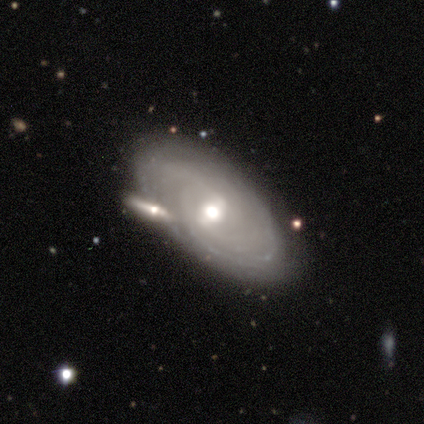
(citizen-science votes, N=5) A featured or disk galaxy (80%) with a weak bar (75%), more than 4 (50%, tied with can't tell) tight (100%) spiral arms (100%) and a moderate central bulge (50%).

Vote fractions:
- Smooth or featured? featured or disk: 80% / smooth: 20% / star or artifact: 0%
- Edge-on disk? no: 100% / yes: 0%
- Bar? weak: 75% / no: 25% / strong: 0%
- Spiral arms? yes: 100% / no: 0%
- Spiral winding? tight: 100% / medium: 0% / loose: 0%
- Spiral arm count? more than 4: 50% (tied) / can't tell: 50% (tied) / 1: 0% / 2: 0% / 3: 0% / 4: 0%
- Bulge size? moderate: 50% / large: 25% / small: 25% / dominant: 0% / none: 0%
- Merging? none: 80% / major disturbance: 20% / minor disturbance: 0% / merger: 0%